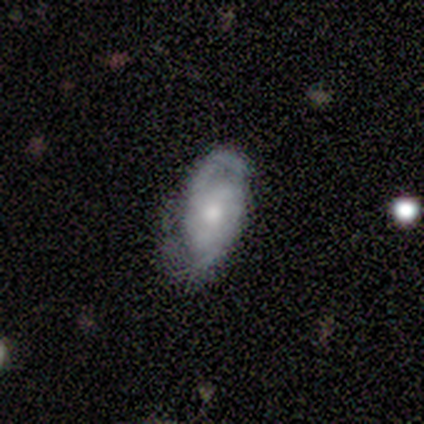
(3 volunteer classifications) Morphology: type=featured or disk (67%); edge-on=no (100%); bar=weak (50%, tied with no); spiral arms=yes (50%, tied with no); winding=tight (100%); arm count=2 (100%); bulge=small (50%, tied with none); merging=none (33%, tied with minor disturbance and major disturbance).